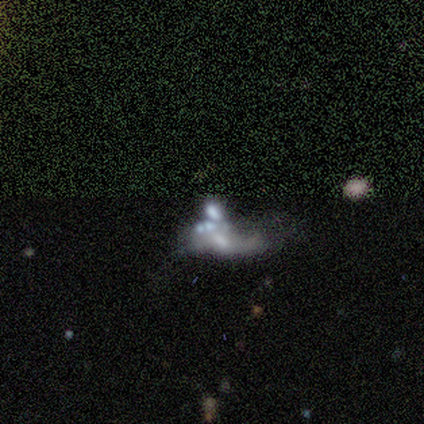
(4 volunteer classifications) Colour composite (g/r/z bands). It shows a featured or disk galaxy (50%) with a strong bar (50%, tied with no), no spiral arms (100%) and a small central bulge (50%, tied with none). Merging: major disturbance (67%).